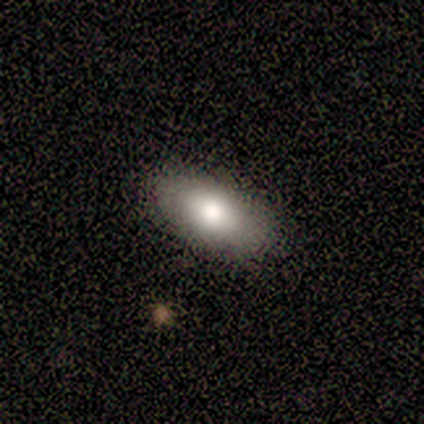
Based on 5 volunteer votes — Smooth or featured? smooth (100%)
How rounded? in between (100%)
Merging? none (100%)